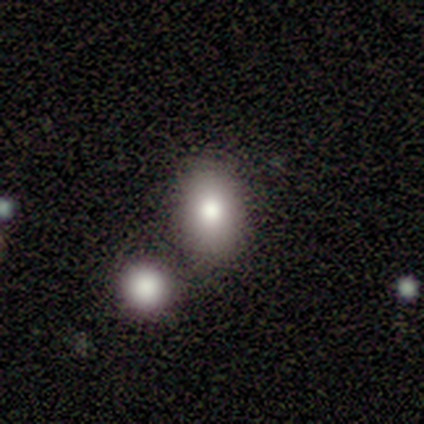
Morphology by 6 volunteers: Overall: smooth (100%). How rounded: in between (100%). Merging: none (100%).